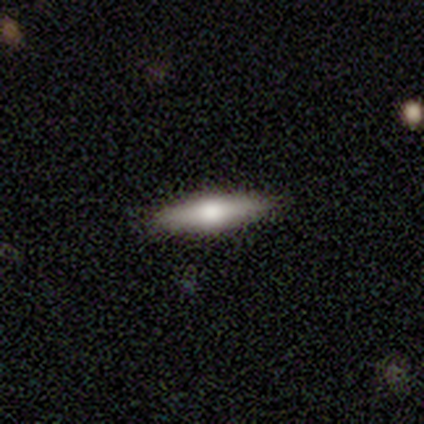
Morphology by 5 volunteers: smooth_or_featured: featured or disk (p=0.60) [alt: smooth p=0.40]
disk_edge_on: yes (p=1.00)
edge_on_bulge: rounded (p=1.00)
merging: none (p=0.60) [alt: minor disturbance p=0.40]